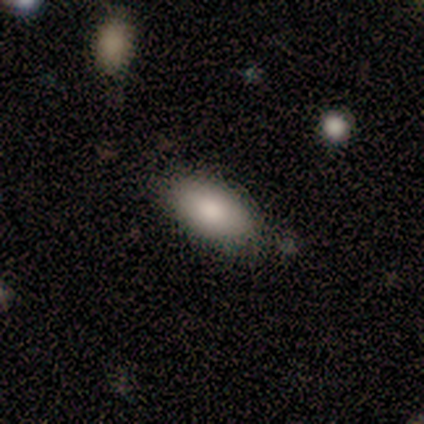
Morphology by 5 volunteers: Consensus on every question: smooth or featured — smooth (100%); how rounded — in between (100%); merging — none (100%).